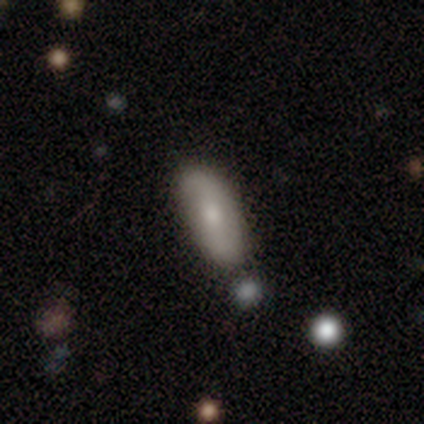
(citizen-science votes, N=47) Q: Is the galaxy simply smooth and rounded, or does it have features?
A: smooth — 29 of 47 (62%).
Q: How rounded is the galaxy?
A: in between — 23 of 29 (79%).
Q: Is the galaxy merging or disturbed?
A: none — 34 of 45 (76%).